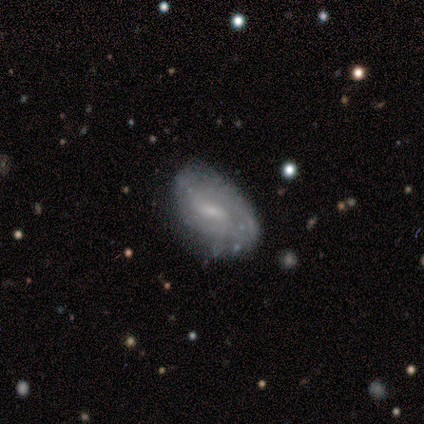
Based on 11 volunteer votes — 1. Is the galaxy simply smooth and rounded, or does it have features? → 64% featured or disk, 36% smooth, 0% star or artifact.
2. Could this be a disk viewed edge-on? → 86% no, 14% yes.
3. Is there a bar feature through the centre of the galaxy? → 83% no, 17% weak, 0% strong.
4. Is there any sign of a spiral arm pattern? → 50% yes (tied), 50% no (tied).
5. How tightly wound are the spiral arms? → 33% tight (tied), 33% medium (tied), 33% loose (tied).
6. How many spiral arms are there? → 33% 2 (tied), 33% more than 4 (tied), 33% can't tell (tied), 0% 1, 0% 3, 0% 4.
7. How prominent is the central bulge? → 50% small, 33% none, 17% moderate, 0% dominant, 0% large.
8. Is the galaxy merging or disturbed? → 64% none, 18% minor disturbance, 18% merger, 0% major disturbance.